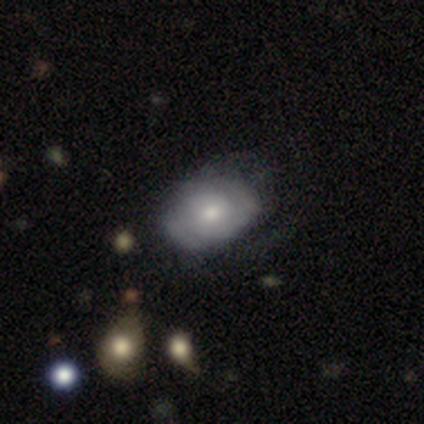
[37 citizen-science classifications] featured or disk 59%, smooth 35%, star or artifact 5%. Down the decision tree: edge-on disk — no (91%); bar — no (75%); spiral arms — yes (80%); spiral arm count — can't tell (50%); spiral winding — tight (50%); bulge size — moderate (60%); merging — none (54%).